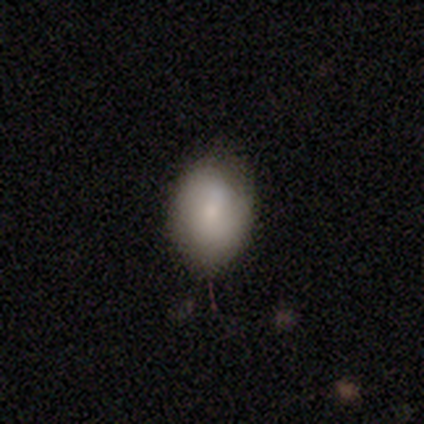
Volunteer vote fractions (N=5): Morphology: type=smooth (60%); roundness=in between (67%); merging=none (75%).